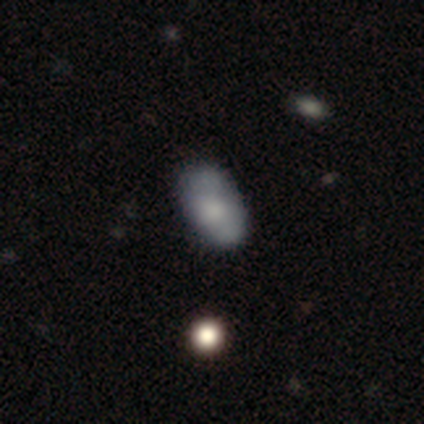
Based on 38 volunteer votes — Smooth or featured? smooth (63%)
How rounded? in between (92%)
Merging? none (76%)